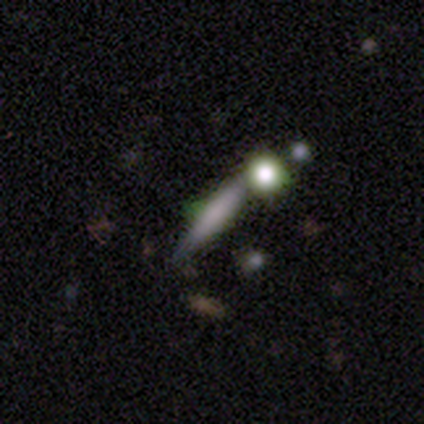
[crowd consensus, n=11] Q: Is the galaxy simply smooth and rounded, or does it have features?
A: smooth — 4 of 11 (36%, tied with featured or disk).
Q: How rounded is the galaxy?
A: cigar-shaped — 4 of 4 (100%).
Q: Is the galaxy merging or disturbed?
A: none — 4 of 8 (50%).